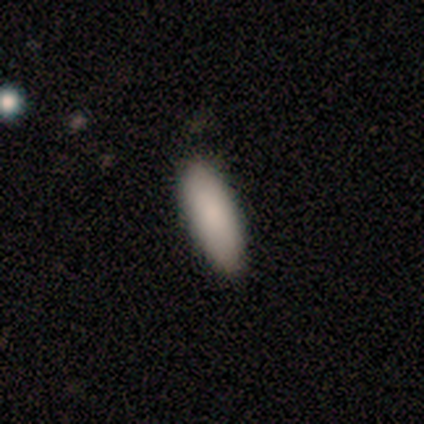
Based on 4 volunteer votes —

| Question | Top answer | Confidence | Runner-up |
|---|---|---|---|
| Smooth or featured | smooth | 100% | — |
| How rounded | in between | 75% | cigar-shaped (25%) |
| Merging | none | 75% | minor disturbance (25%) |